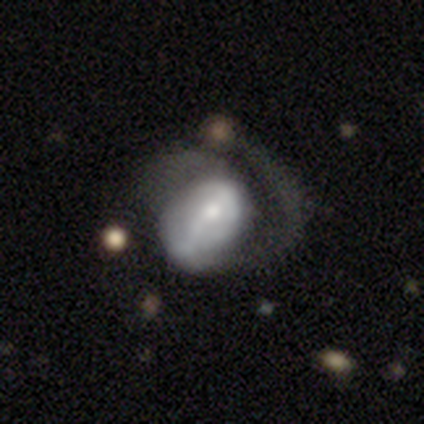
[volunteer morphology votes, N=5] Volunteers were most divided on "smooth or featured": smooth: 60%, featured or disk: 40%, star or artifact: 0%. More confident: how rounded — in between (100%); merging — major disturbance (60%).